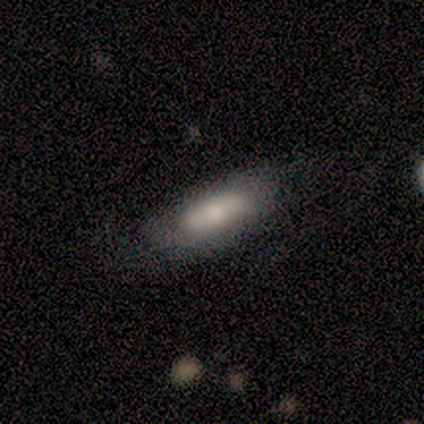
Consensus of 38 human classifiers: smooth_or_featured: smooth (p=0.61) [alt: featured or disk p=0.37]
how_rounded: in between (p=0.70) [alt: cigar-shaped p=0.30]
merging: none (p=0.51) [alt: major disturbance p=0.14]